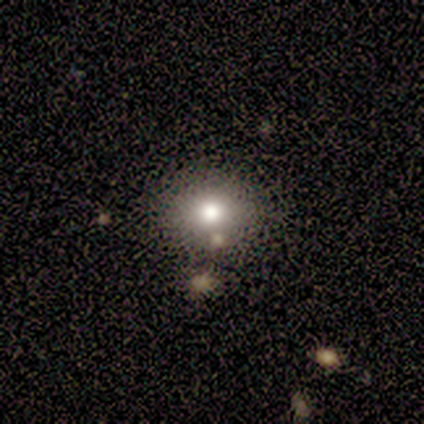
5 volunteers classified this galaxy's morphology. Smooth or featured: smooth — 80% (star or artifact — 20%)
How rounded: round — 50% (tied with in between — 50%)
Merging: none — 50% (minor disturbance — 25%)